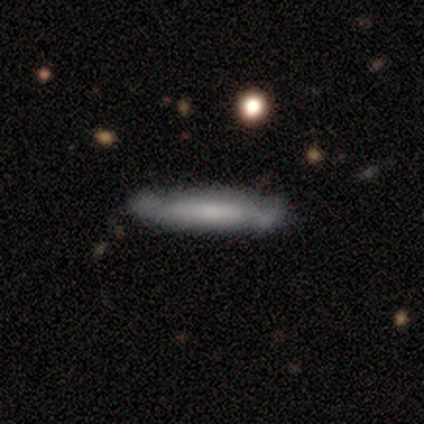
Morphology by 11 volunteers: featured or disk 55%, smooth 45%, star or artifact 0%. Down the decision tree: edge-on disk — yes (100%); edge-on bulge — none (67%); merging — none (64%).